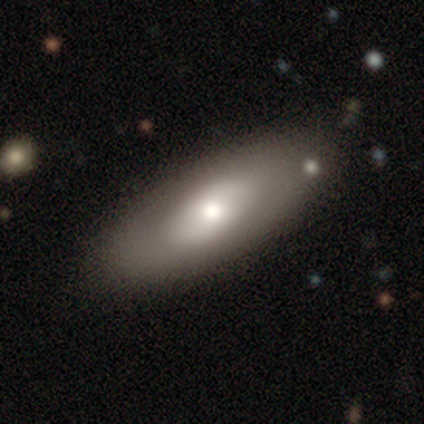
A smooth galaxy with no disk features (63%) that is in between round and cigar-shaped (83%).

Vote fractions:
- Smooth or featured? smooth: 63% / featured or disk: 34% / star or artifact: 3%
- How rounded? in between: 83% / cigar-shaped: 17% / round: 0%
- Merging? none: 78% / minor disturbance: 14% / major disturbance: 8% / merger: 0%